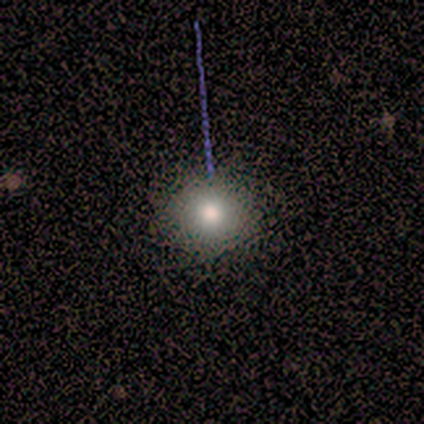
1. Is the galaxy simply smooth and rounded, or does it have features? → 67% smooth, 33% featured or disk, 0% star or artifact.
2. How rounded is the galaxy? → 100% round, 0% in between, 0% cigar-shaped.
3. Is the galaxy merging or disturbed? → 100% none, 0% minor disturbance, 0% major disturbance, 0% merger.